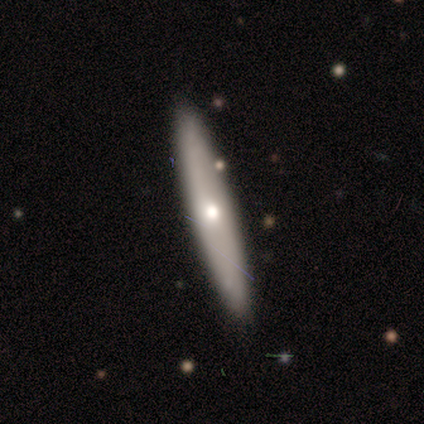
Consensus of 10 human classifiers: smooth-or-featured: smooth: 60% | featured or disk: 40% | star or artifact: 0%
  how-rounded: cigar-shaped: 83% | in between: 17% | round: 0%
  merging: none: 100% | minor disturbance: 0% | major disturbance: 0% | merger: 0%